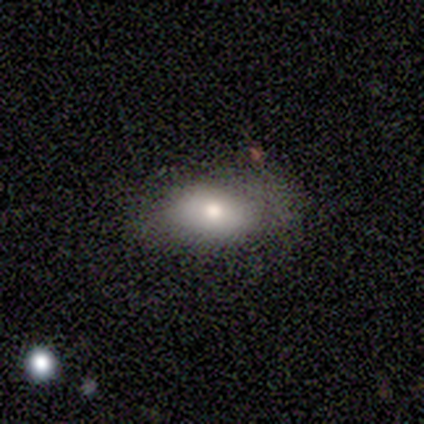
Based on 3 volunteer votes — Q: Smooth or featured?
A: smooth (67%); runner-up: star or artifact (33%)
Q: How rounded?
A: in between (100%)
Q: Merging?
A: none (100%)